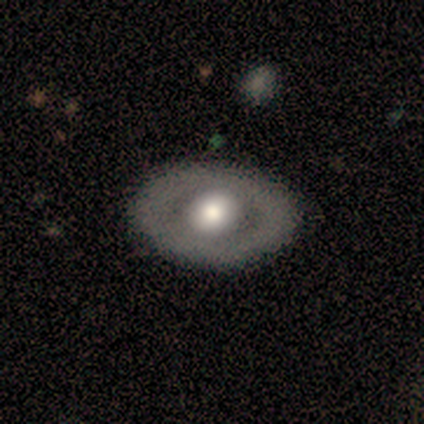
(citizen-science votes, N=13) Q: Smooth or featured?
A: featured or disk (62%); runner-up: smooth (31%)
Q: Edge-on disk?
A: no (100%)
Q: Bar?
A: no (100%)
Q: Spiral arms?
A: no (88%); runner-up: yes (12%)
Q: Bulge size?
A: large (50%); tied with: moderate (50%)
Q: Merging?
A: none (83%); runner-up: minor disturbance (8%)